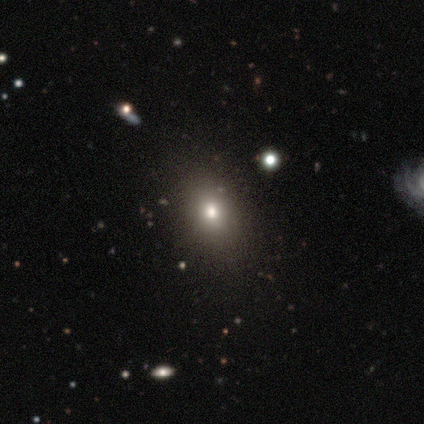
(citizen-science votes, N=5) This is likely a smooth galaxy (60%). How rounded: likely in between (67%). Merging: likely none (75%).